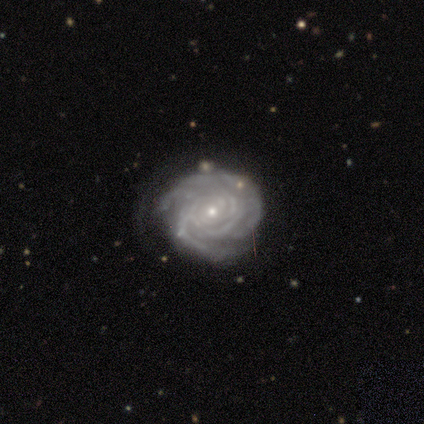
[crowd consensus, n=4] Volunteers were most divided on "spiral arm count": can't tell: 50%, 3: 25%, more than 4: 25%, 1: 0%, 2: 0%, 4: 0%. More confident: smooth or featured — featured or disk (100%); edge-on disk — no (100%); bar — no (100%); spiral arms — yes (100%); bulge size — small (100%); spiral winding — tight (75%); merging — none (75%).